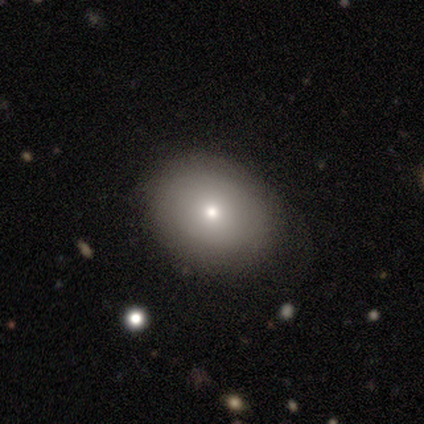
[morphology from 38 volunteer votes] smooth_or_featured: smooth (p=0.76) [alt: featured or disk p=0.18]
how_rounded: in between (p=0.55) [alt: round p=0.41]
merging: none (p=0.64) [alt: minor disturbance p=0.28]